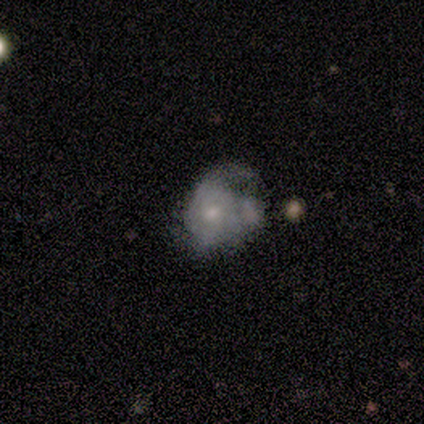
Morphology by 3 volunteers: Smooth or featured? smooth (100%)
How rounded? in between (67%)
Merging? none (33%, tied with minor disturbance and major disturbance)